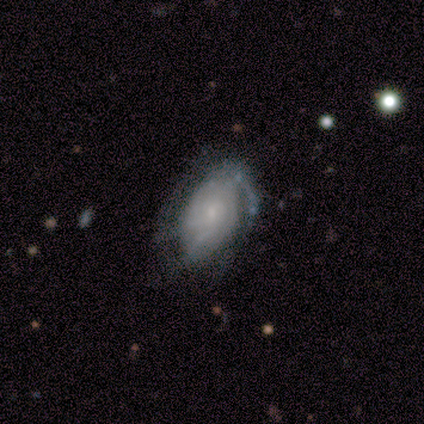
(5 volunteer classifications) This appears to be a featured or disk galaxy (60%) with no bar (100%), tight (33%, tied with medium and loose) spiral arms (100%) and a dominant central bulge (33%, tied with moderate and small). Merging: minor disturbance (60%).